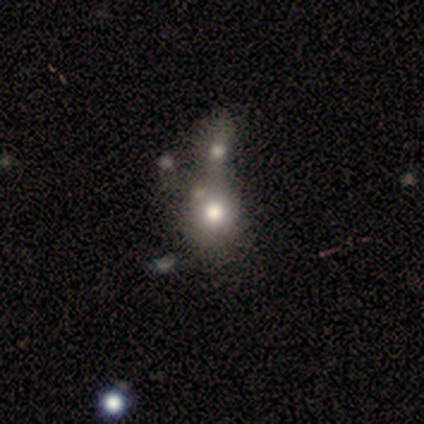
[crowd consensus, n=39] Overall: smooth (77%). How rounded: round (70%; in between 30%). Merging: merger (72%).